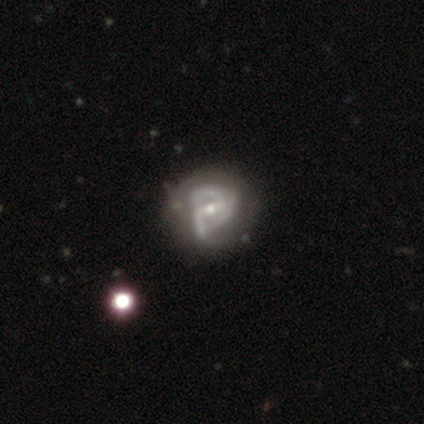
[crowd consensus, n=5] Morphology: type=featured or disk (100%); edge-on=no (100%); bar=strong (60%); spiral arms=yes (80%); winding=medium (75%); arm count=can't tell (50%); bulge=small (100%); merging=none (60%).